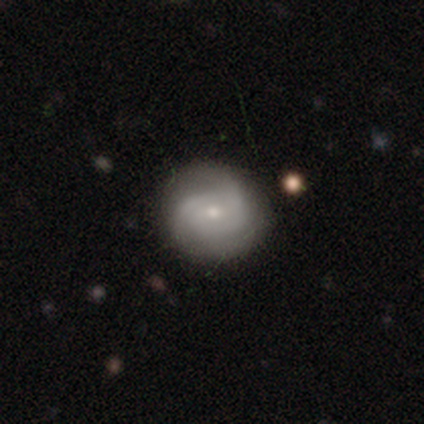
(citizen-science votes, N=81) featured or disk 72%, smooth 23%, star or artifact 5%. Down the decision tree: edge-on disk — no (98%); bar — no (70%); spiral arms — yes (89%); spiral arm count — 2 (55%); spiral winding — tight (47%); bulge size — small (61%); merging — none (38%).